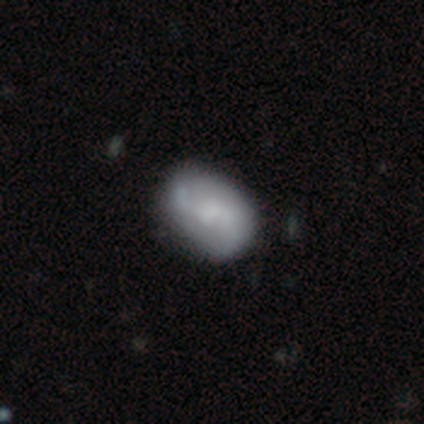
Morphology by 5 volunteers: Smooth or featured? smooth (60%)
How rounded? in between (100%)
Merging? none (100%)